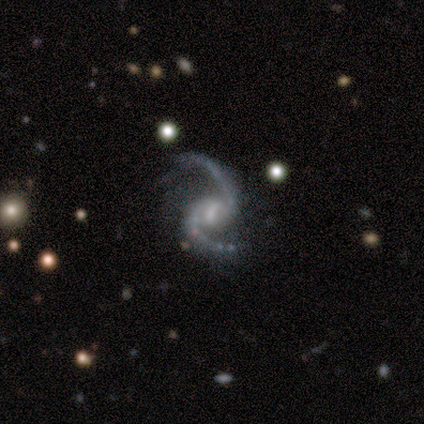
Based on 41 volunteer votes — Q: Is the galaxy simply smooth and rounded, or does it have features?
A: featured or disk — 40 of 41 (98%).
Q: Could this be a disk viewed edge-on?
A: no — 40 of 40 (100%).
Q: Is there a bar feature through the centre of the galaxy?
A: weak — 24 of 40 (60%).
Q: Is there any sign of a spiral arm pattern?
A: yes — 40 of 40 (100%).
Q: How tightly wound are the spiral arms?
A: loose — 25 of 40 (62%).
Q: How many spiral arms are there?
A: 2 — 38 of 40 (95%).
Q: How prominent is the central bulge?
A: small — 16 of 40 (40%).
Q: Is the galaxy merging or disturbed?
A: none — 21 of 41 (51%).